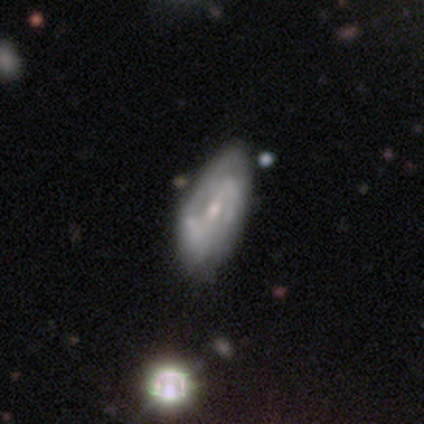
Smooth or featured? 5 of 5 (100%) said featured or disk. Edge-on disk? 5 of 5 (100%) said no. Bar? 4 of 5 (80%) said weak. Spiral arms? 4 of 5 (80%) said yes. Spiral winding? 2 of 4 (50%) said medium. Spiral arm count? 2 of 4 (50%) said 2. Bulge size? 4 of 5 (80%) said small. Merging? 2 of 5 (40%, tied with minor disturbance) said none.